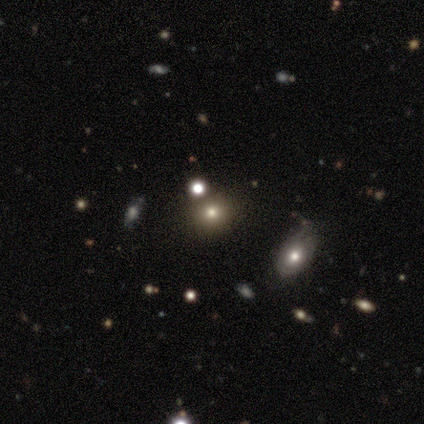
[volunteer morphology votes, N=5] Smooth or featured? 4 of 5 (80%) said smooth. How rounded? 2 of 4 (50%) said cigar-shaped. Merging? 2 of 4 (50%, tied with minor disturbance) said none.